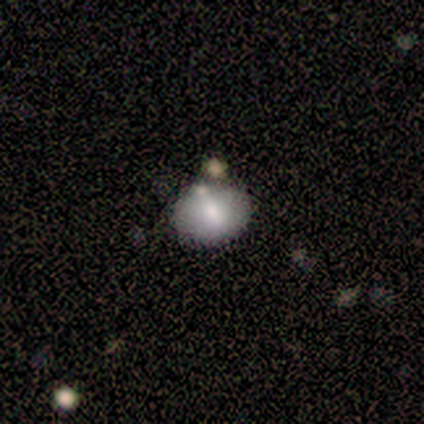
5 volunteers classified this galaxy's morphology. smooth 80%, star or artifact 20%, featured or disk 0%. Down the decision tree: how rounded — in between (75%); merging — none (75%).